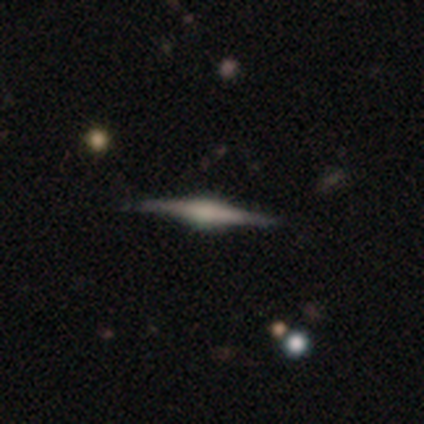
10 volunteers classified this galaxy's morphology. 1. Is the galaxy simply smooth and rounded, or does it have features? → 90% featured or disk, 10% star or artifact, 0% smooth.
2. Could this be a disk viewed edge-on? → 100% yes, 0% no.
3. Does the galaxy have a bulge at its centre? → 78% rounded, 22% boxy, 0% none.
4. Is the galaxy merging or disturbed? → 89% none, 11% minor disturbance, 0% major disturbance, 0% merger.